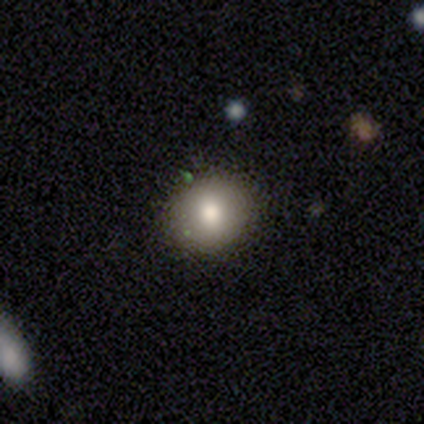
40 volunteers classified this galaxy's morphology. This appears to be a smooth galaxy with no disk features (88%) that is round (74%). Merging: none (89%).